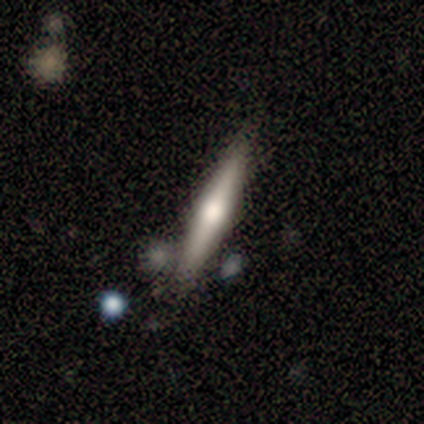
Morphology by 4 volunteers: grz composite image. It shows a featured or disk galaxy (100%) viewed edge-on (100%) with a rounded central bulge (100%). Merging: none (100%).